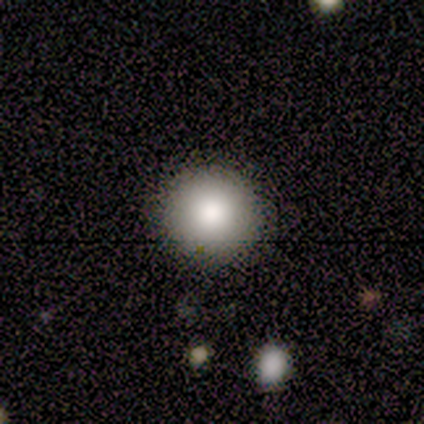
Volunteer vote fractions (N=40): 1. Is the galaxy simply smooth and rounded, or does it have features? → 70% smooth, 22% featured or disk, 8% star or artifact.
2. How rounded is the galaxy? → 100% round, 0% in between, 0% cigar-shaped.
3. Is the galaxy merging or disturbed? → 97% none, 3% minor disturbance, 0% major disturbance, 0% merger.